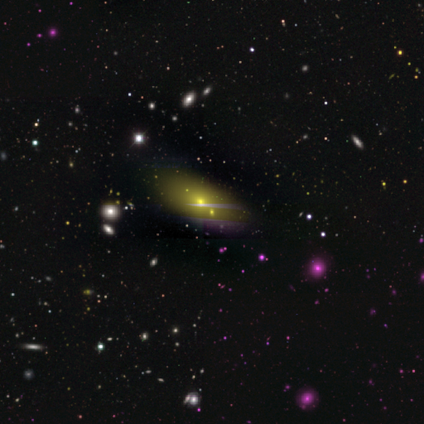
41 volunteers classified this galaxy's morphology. Smooth or featured? smooth (59%)
How rounded? in between (88%)
Merging? none (67%)